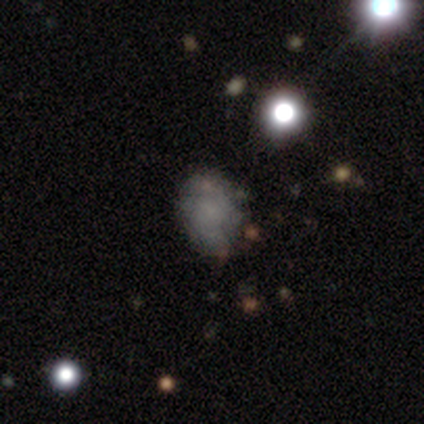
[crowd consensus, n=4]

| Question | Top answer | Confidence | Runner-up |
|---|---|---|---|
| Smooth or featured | smooth | 75% | star or artifact (25%) |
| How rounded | round | 67% | in between (33%) |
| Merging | none | 100% | — |